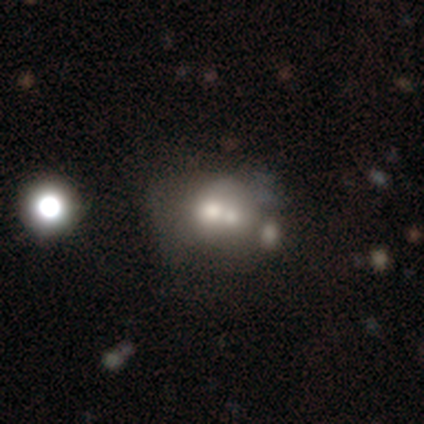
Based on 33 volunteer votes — Q: Smooth or featured?
A: smooth (61%); runner-up: featured or disk (30%)
Q: How rounded?
A: round (60%); runner-up: in between (40%)
Q: Merging?
A: merger (63%)